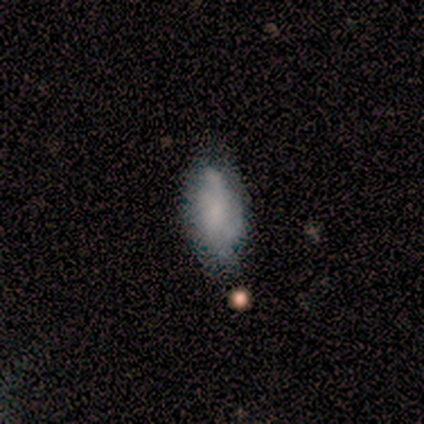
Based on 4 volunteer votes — Smooth or featured: featured or disk — 75% (smooth — 25%)
Edge-on disk: no — 100%
Bar: no — 67% (weak — 33%)
Spiral arms: no — 67% (yes — 33%)
Bulge size: small — 67% (moderate — 33%)
Merging: minor disturbance — 75% (none — 25%)